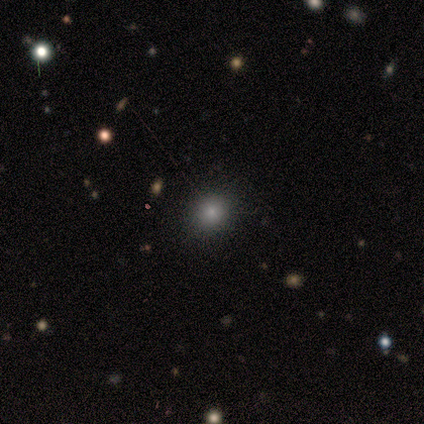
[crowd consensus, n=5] Morphology: type=smooth (100%); roundness=round (100%); merging=none (100%).